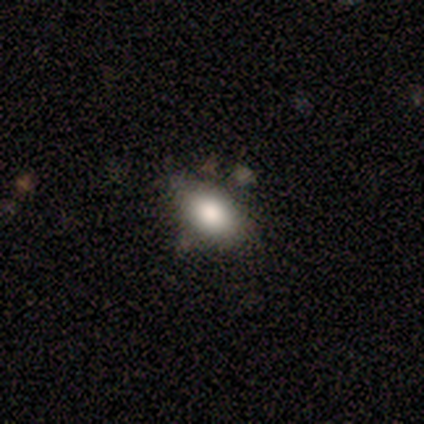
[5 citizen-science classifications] smooth 80%, star or artifact 20%, featured or disk 0%. Down the decision tree: how rounded — in between (75%); merging — none (100%).